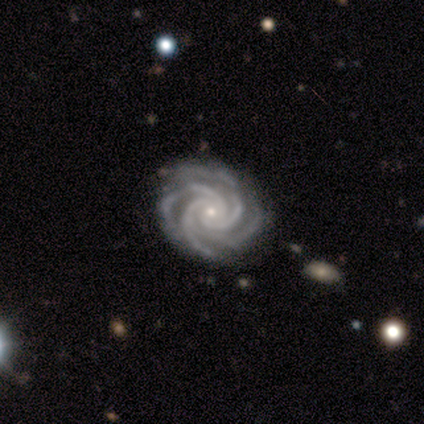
smooth_or_featured: featured or disk (p=0.93) [alt: star or artifact p=0.07]
disk_edge_on: no (p=0.97) [alt: yes p=0.03]
bar: no (p=0.75) [alt: strong p=0.17]
has_spiral_arms: yes (p=1.00)
spiral_winding: tight (p=0.92) [alt: medium p=0.08]
spiral_arm_count: 4 (p=0.58) [alt: 3 p=0.28]
bulge_size: small (p=0.78) [alt: moderate p=0.19]
merging: none (p=0.86) [alt: minor disturbance p=0.14]